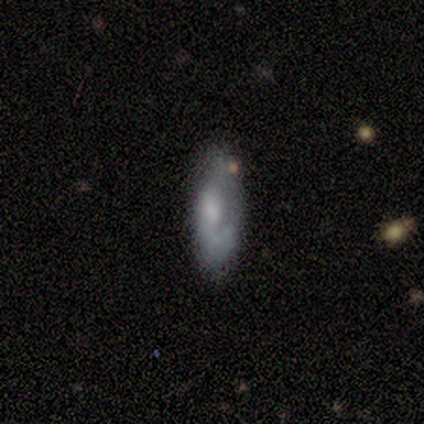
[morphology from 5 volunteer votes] type=featured or disk (80%); edge-on=no (100%); bar=no (100%); spiral arms=yes (100%); winding=medium (50%); arm count=1 (75%); bulge=moderate (50%); merging=none (100%).